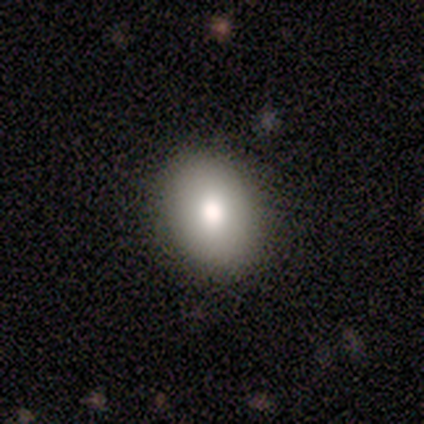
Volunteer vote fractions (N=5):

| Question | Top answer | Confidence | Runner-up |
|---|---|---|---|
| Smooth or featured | smooth | 80% | featured or disk (20%) |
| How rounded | in between | 75% | round (25%) |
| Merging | none | 80% | minor disturbance (20%) |